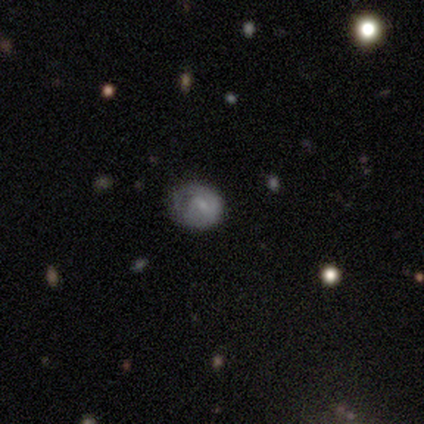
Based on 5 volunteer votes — A smooth galaxy with no disk features (80%) that is round (75%).

Vote fractions:
- Smooth or featured? smooth: 80% / featured or disk: 20% / star or artifact: 0%
- How rounded? round: 75% / in between: 25% / cigar-shaped: 0%
- Merging? none: 60% / minor disturbance: 20% / major disturbance: 20% / merger: 0%